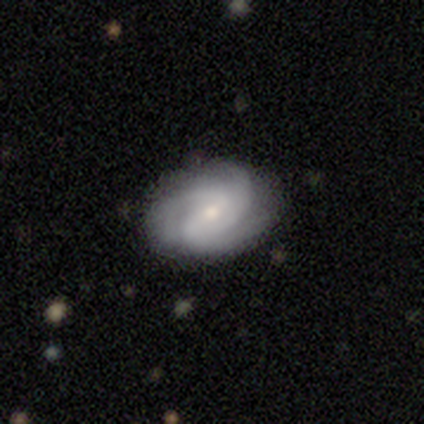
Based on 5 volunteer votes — This appears to be a featured or disk galaxy (60%) with no bar (67%), 2 (50%, tied with 3) tight (50%, tied with medium) spiral arms (67%) and a small central bulge (67%). Merging: none (60%).